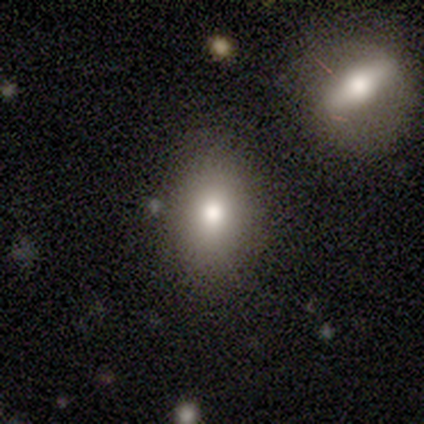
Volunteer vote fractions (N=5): Smooth or featured: smooth — 80% (star or artifact — 20%)
How rounded: in between — 100%
Merging: none — 100%